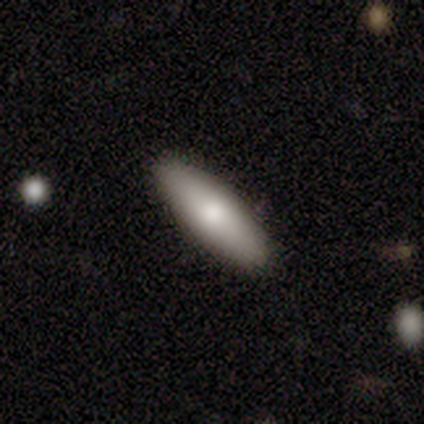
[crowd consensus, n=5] A smooth galaxy with no disk features (100%) that is in between round and cigar-shaped (60%). Merging: none (100%).